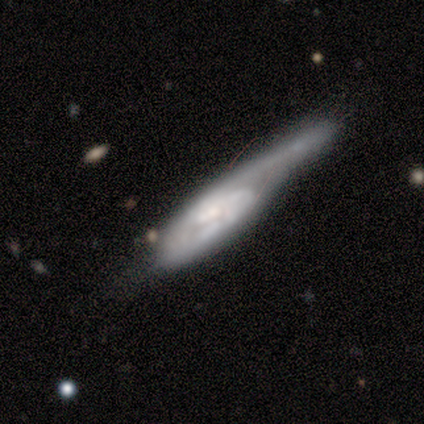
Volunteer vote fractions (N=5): A featured or disk galaxy (100%) with no bar (50%), 1 (100%) tight (50%, tied with loose) spiral arms (50%, tied with no) and a small central bulge (75%).

Vote fractions:
- Smooth or featured? featured or disk: 100% / smooth: 0% / star or artifact: 0%
- Edge-on disk? no: 80% / yes: 20%
- Bar? no: 50% / strong: 25% / weak: 25%
- Spiral arms? yes: 50% (tied) / no: 50% (tied)
- Spiral winding? tight: 50% (tied) / loose: 50% (tied) / medium: 0%
- Spiral arm count? 1: 100% / 2: 0% / 3: 0% / 4: 0% / more than 4: 0% / can't tell: 0%
- Bulge size? small: 75% / none: 25% / dominant: 0% / large: 0% / moderate: 0%
- Merging? minor disturbance: 60% / none: 40% / major disturbance: 0% / merger: 0%